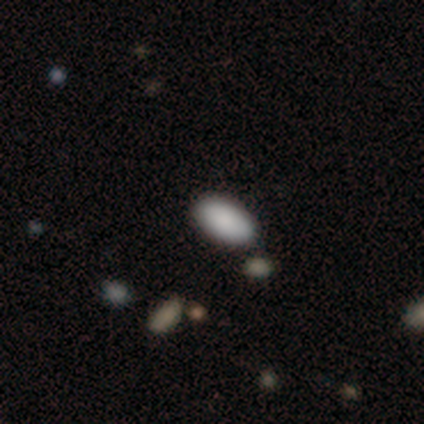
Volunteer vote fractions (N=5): Morphology: type=smooth (100%); roundness=in between (80%); merging=none (80%).